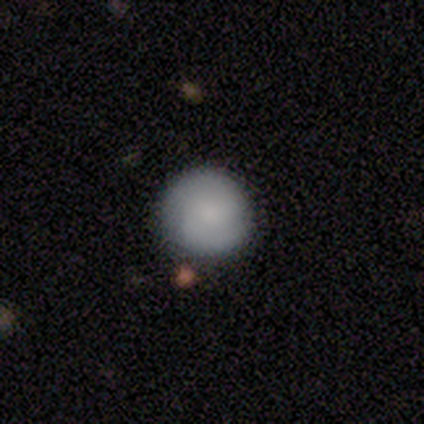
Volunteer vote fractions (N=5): Overall: smooth (80%). How rounded: round (100%). Merging: none (75%).